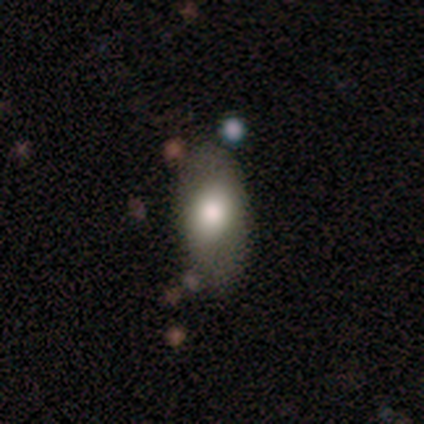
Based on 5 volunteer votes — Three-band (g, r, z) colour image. It shows a smooth galaxy with no disk features (80%) that is in between round and cigar-shaped (100%). Merging: none (100%).